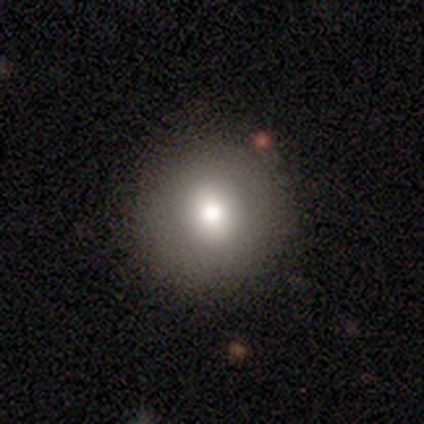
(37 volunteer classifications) A smooth galaxy with no disk features (76%) that is round (89%). Merging: none (82%).